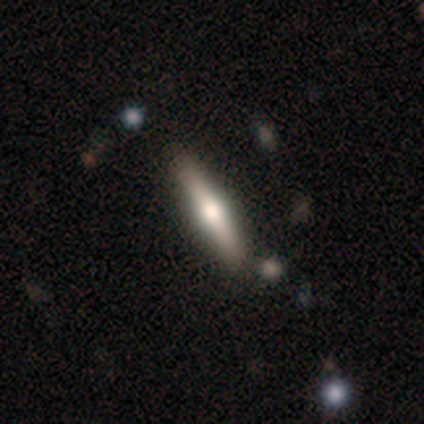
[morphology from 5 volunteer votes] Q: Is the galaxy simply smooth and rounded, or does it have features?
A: smooth — 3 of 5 (60%).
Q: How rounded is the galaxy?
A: cigar-shaped — 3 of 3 (100%).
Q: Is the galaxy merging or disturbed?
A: none — 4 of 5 (80%).